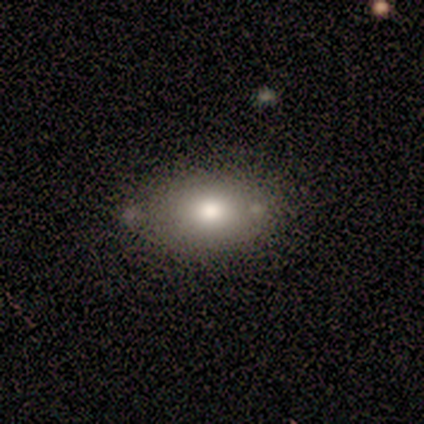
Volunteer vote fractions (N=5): smooth 100%, featured or disk 0%, star or artifact 0%. Down the decision tree: how rounded — in between (60%); merging — none (80%).